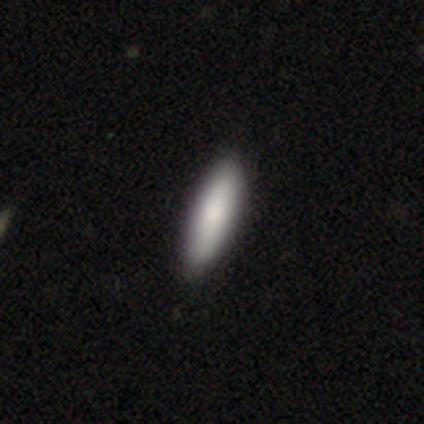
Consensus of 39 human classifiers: smooth 90%, featured or disk 8%, star or artifact 3%. Down the decision tree: how rounded — cigar-shaped (54%); merging — none (61%).